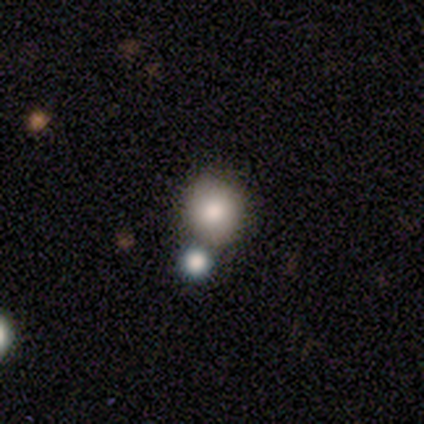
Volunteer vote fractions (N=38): A smooth galaxy with no disk features (76%) that is round (86%). Merging: none (76%).